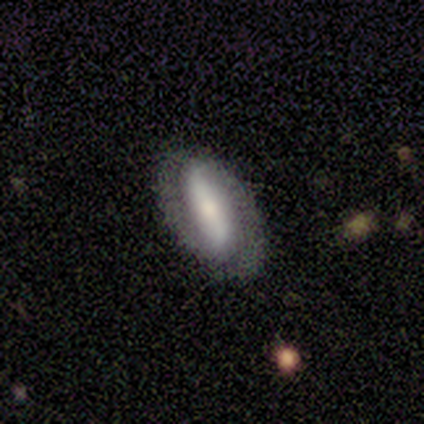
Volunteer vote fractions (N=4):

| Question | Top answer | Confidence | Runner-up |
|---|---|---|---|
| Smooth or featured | featured or disk | 50% | smooth (25%) |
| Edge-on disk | no | 100% | — |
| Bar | strong | 100% | — |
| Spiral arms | yes | 100% | — |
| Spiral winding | tight | 50% | tied: medium (50%) |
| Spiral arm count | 2 | 100% | — |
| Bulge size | moderate | 50% | tied: small (50%) |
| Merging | none | 100% | — |